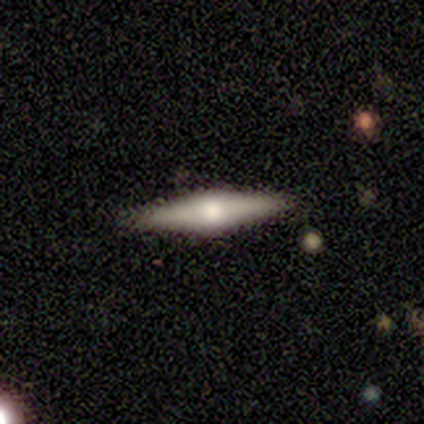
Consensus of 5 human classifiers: A featured or disk galaxy (80%) viewed edge-on (75%) with a rounded central bulge (100%). Merging: none (80%).